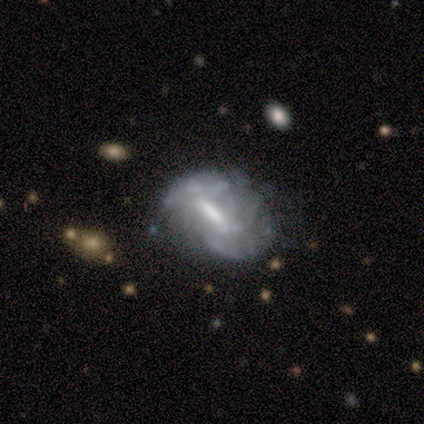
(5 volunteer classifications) Smooth or featured? featured or disk (80%)
Edge-on disk? no (100%)
Bar? strong (50%)
Spiral arms? no (75%)
Bulge size? none (50%)
Merging? minor disturbance (80%)